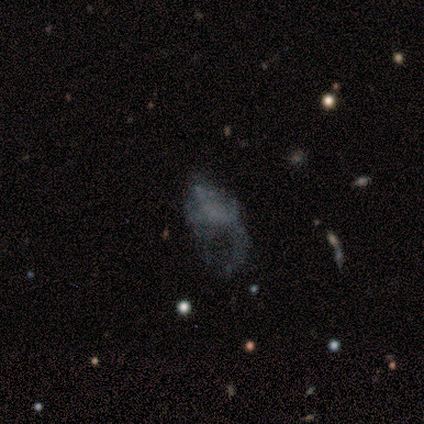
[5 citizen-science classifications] This appears to be a featured or disk galaxy (60%) with no bar (100%), 1 (50%, tied with 2) loose (100%) spiral arms (67%) and no central bulge (100%). Merging: major disturbance (80%).